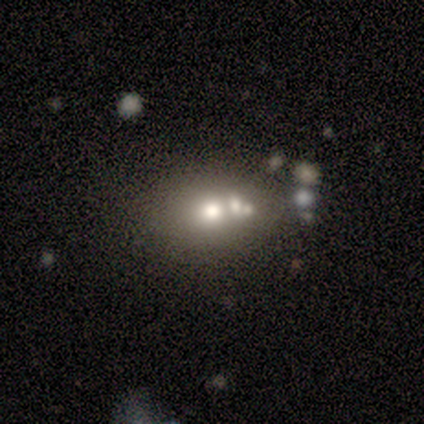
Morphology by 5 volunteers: type=smooth (80%); roundness=round (50%, tied with in between); merging=none (100%).